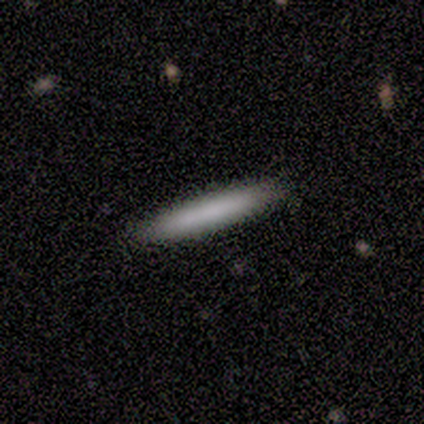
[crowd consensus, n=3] Smooth or featured?
  - smooth: 67% *
  - featured or disk: 33%
  - star or artifact: 0%
How rounded?
  - cigar-shaped: 100% *
  - round: 0%
  - in between: 0%
Merging?
  - none: 67% *
  - minor disturbance: 33%
  - major disturbance: 0%
  - merger: 0%